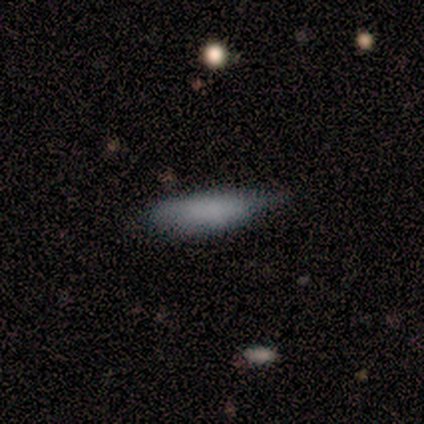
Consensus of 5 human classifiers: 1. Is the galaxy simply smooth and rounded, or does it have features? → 80% smooth, 20% star or artifact, 0% featured or disk.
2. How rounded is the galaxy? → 75% cigar-shaped, 25% in between, 0% round.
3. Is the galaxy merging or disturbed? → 50% none (tied), 50% minor disturbance (tied), 0% major disturbance, 0% merger.